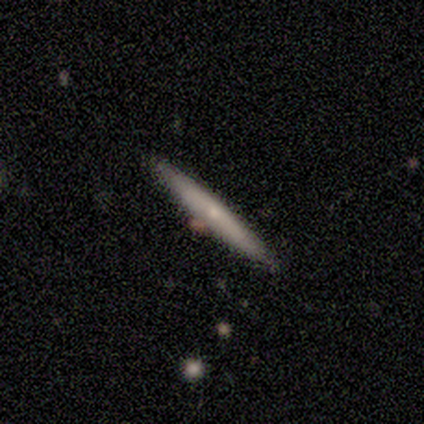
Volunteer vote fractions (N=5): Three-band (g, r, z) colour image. It shows a smooth galaxy with no disk features (40%, tied with featured or disk) that is cigar-shaped (100%). Merging: none (100%).